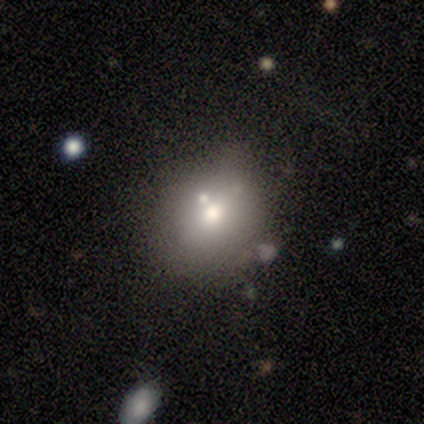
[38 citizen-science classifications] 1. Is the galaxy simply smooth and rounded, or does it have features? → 61% smooth, 26% featured or disk, 13% star or artifact.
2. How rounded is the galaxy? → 65% round, 35% in between, 0% cigar-shaped.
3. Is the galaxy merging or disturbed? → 52% none, 36% minor disturbance, 9% merger, 3% major disturbance.